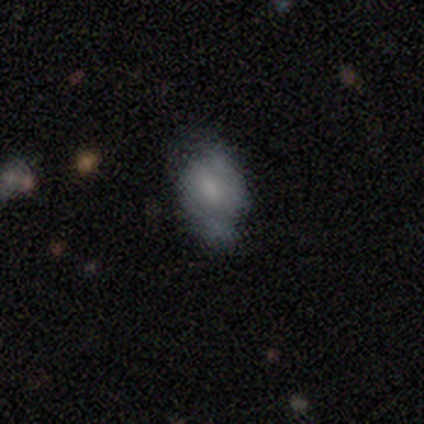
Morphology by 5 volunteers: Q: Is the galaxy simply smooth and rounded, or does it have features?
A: featured or disk — 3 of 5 (60%).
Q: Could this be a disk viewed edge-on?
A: no — 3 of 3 (100%).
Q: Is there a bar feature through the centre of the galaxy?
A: no — 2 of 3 (67%).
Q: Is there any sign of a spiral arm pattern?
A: yes — 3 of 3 (100%).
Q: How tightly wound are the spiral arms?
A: tight — 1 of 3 (33%, tied with medium and loose).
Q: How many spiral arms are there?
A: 2 — 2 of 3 (67%).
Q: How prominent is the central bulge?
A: moderate — 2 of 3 (67%).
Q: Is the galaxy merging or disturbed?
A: none — 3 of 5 (60%).